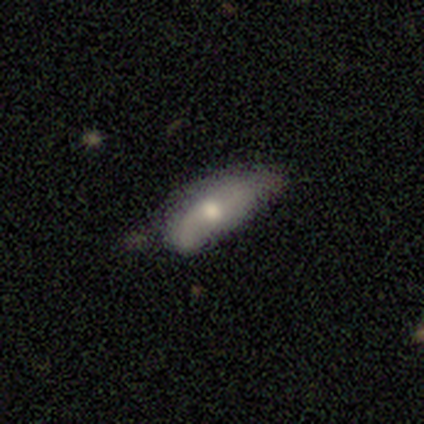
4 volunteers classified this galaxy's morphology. smooth-or-featured: smooth: 50% (tied) | featured or disk: 50% (tied) | star or artifact: 0%
  how-rounded: in between: 50% (tied) | cigar-shaped: 50% (tied) | round: 0%
  merging: minor disturbance: 75% | none: 25% | major disturbance: 0% | merger: 0%